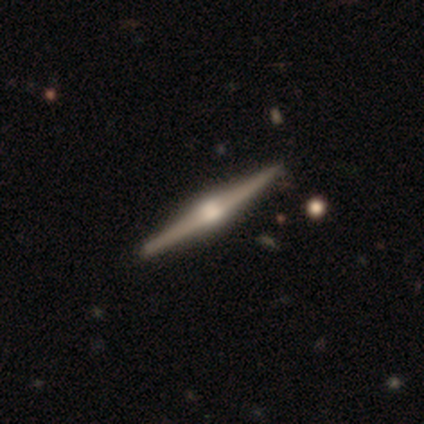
This appears to be a featured or disk galaxy (80%) viewed edge-on (100%) with a boxy central bulge (50%, tied with rounded). Merging: none (80%).